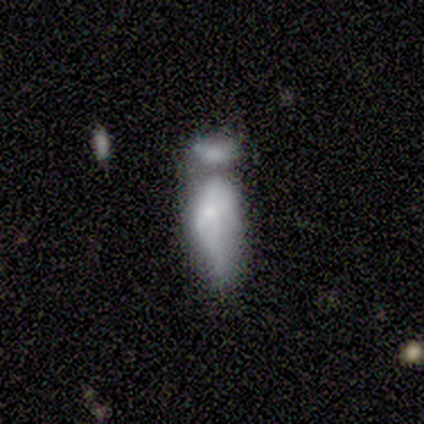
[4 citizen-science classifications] Volunteers were most divided on "smooth or featured" (2-way tie): smooth: 50%, featured or disk: 50%, star or artifact: 0%. More confident: how rounded — in between (100%); merging — merger (50%).